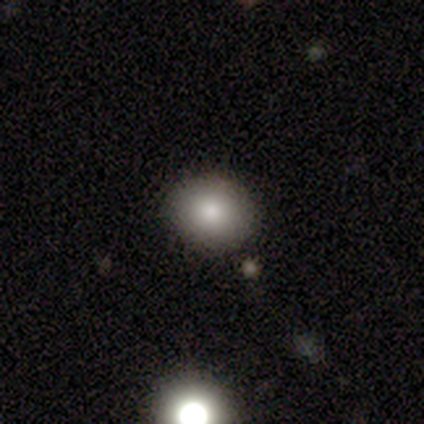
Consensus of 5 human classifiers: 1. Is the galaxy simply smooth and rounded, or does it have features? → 100% smooth, 0% featured or disk, 0% star or artifact.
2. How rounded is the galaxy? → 80% round, 20% in between, 0% cigar-shaped.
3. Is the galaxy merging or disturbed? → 80% none, 20% major disturbance, 0% minor disturbance, 0% merger.